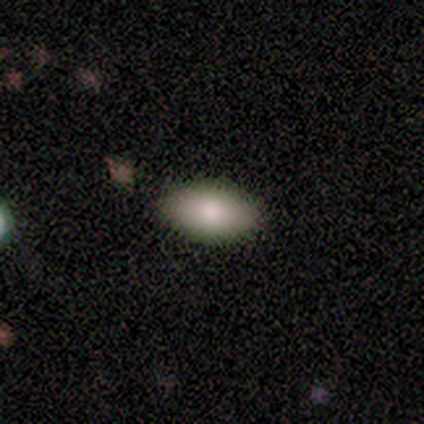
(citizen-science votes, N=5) Smooth or featured? 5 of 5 (100%) said smooth. How rounded? 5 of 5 (100%) said in between. Merging? 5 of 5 (100%) said none.